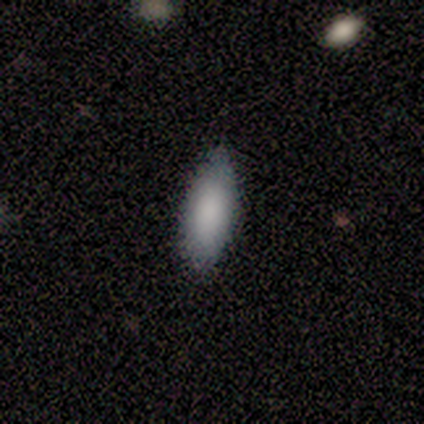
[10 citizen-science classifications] smooth 90%, star or artifact 10%, featured or disk 0%. Down the decision tree: how rounded — in between (89%); merging — none (78%).